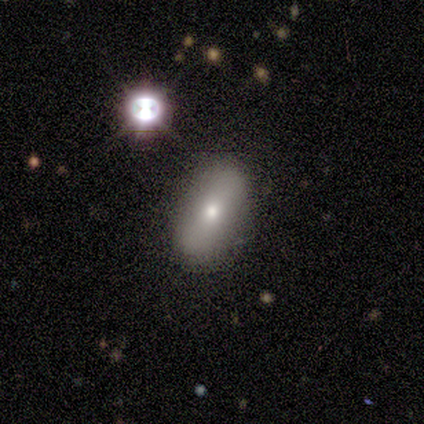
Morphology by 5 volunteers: A smooth galaxy with no disk features (80%) that is in between round and cigar-shaped (100%). Merging: none (75%).